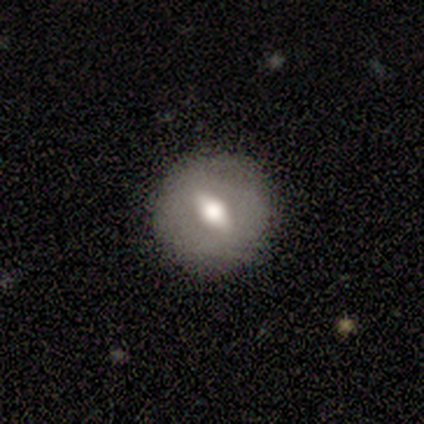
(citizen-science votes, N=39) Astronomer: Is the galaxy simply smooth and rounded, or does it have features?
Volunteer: smooth — 59% (runner-up: featured or disk, 36%).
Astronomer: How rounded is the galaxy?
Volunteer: round — 74%.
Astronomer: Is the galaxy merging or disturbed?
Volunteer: none — 86%.